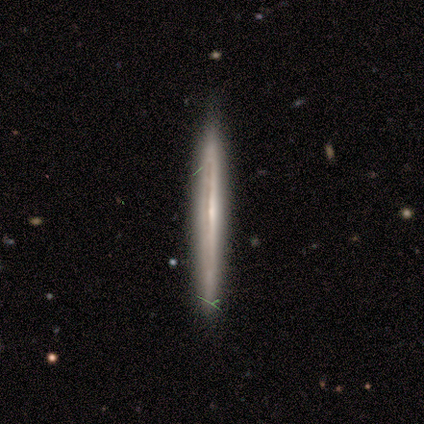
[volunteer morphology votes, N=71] smooth-or-featured: featured or disk: 70% | smooth: 25% | star or artifact: 4%
  disk-edge-on: yes: 94% | no: 6%
    edge-on-bulge: none: 64% | rounded: 28% | boxy: 9%
  merging: none: 85% | minor disturbance: 12% | major disturbance: 3% | merger: 0%